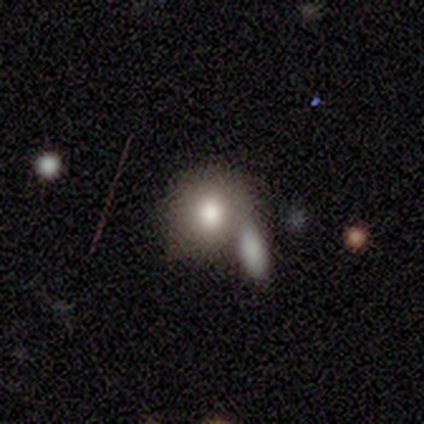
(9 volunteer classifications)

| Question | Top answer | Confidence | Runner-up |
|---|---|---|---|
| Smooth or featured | smooth | 67% | star or artifact (22%) |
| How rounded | round | 50% | tied: in between (50%) |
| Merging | none | 29% | tied: minor disturbance (29%), merger (29%) |